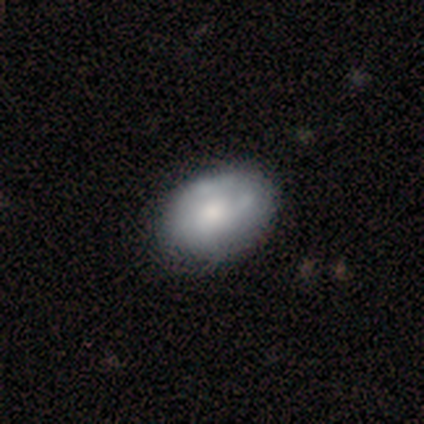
smooth 53%, featured or disk 42%, star or artifact 5%. Down the decision tree: how rounded — in between (95%); merging — none (39%).